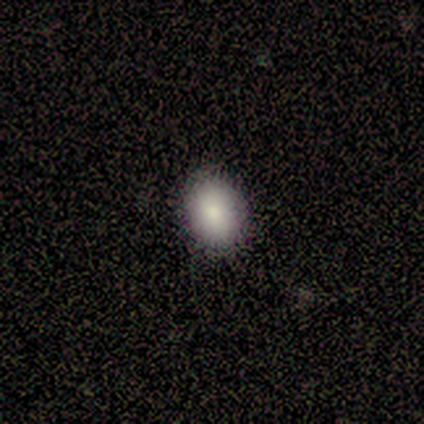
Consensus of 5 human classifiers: smooth_or_featured: smooth (p=1.00)
how_rounded: in between (p=0.60) [alt: round p=0.40]
merging: none (p=1.00)